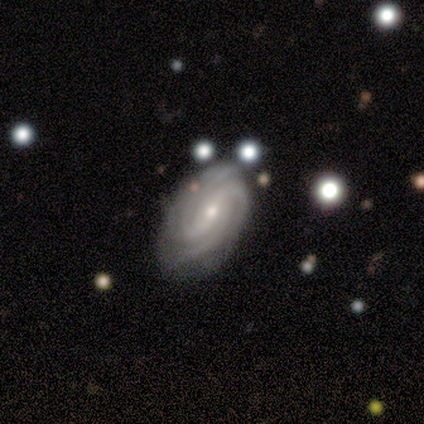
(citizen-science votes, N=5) Smooth or featured? 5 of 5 (100%) said featured or disk. Edge-on disk? 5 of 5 (100%) said no. Bar? 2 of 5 (40%, tied with no) said weak. Spiral arms? 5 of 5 (100%) said yes. Spiral winding? 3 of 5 (60%) said tight. Spiral arm count? 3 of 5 (60%) said 3. Bulge size? 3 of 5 (60%) said small. Merging? 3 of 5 (60%) said none.